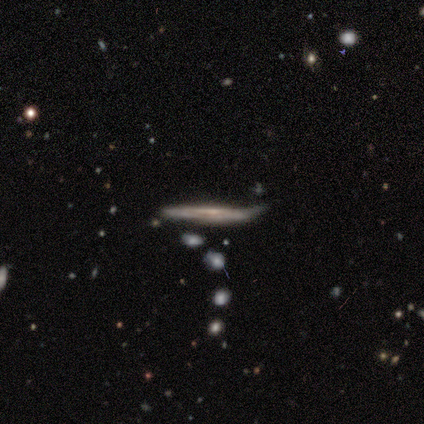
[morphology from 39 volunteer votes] smooth-or-featured: featured or disk: 82% | smooth: 15% | star or artifact: 3%
  disk-edge-on: yes: 81% | no: 19%
    edge-on-bulge: none: 65% | rounded: 23% | boxy: 12%
  merging: none: 61% | minor disturbance: 29% | merger: 8% | major disturbance: 3%